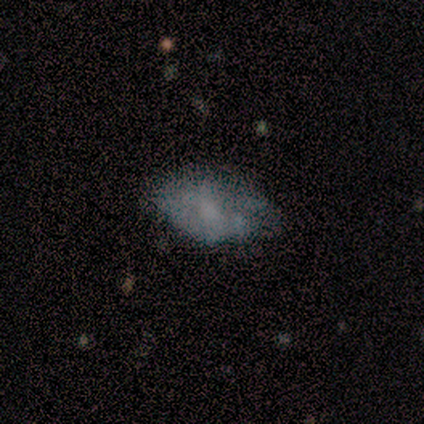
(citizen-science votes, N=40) This appears to be a smooth galaxy with no disk features (48%) that is in between round and cigar-shaped (95%). Merging: none (46%).